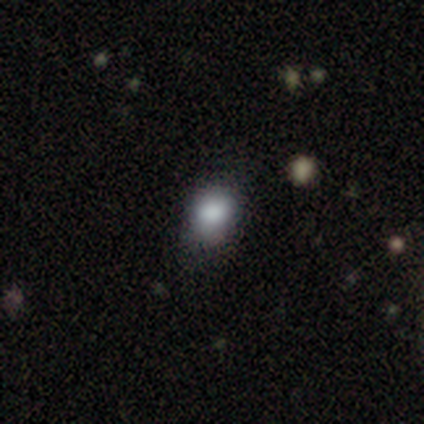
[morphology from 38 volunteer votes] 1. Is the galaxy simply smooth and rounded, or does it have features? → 95% smooth, 5% star or artifact, 0% featured or disk.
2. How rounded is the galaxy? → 53% round, 44% in between, 3% cigar-shaped.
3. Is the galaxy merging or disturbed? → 58% none, 33% minor disturbance, 6% major disturbance, 3% merger.